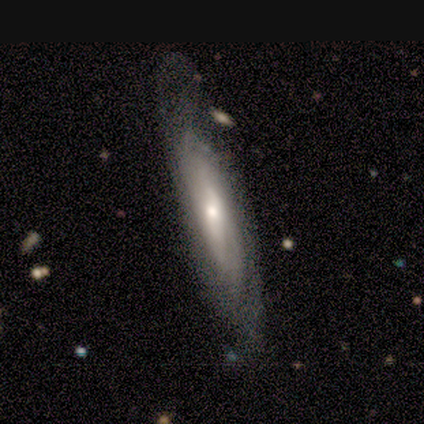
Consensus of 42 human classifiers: Morphology: type=featured or disk (76%); edge-on=no (53%); bar=no (47%); spiral arms=yes (59%); winding=tight (60%); arm count=can't tell (70%); bulge=moderate (53%); merging=none (71%).